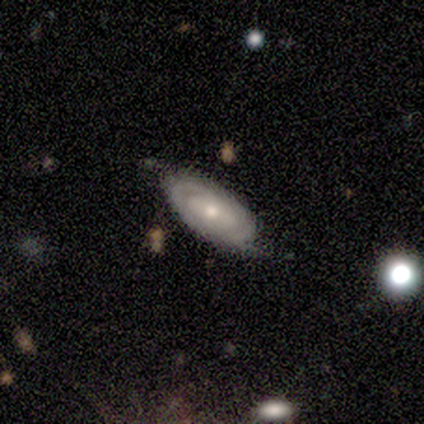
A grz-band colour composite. It shows a smooth galaxy with no disk features (60%) that is in between round and cigar-shaped (100%). Merging: minor disturbance (60%).